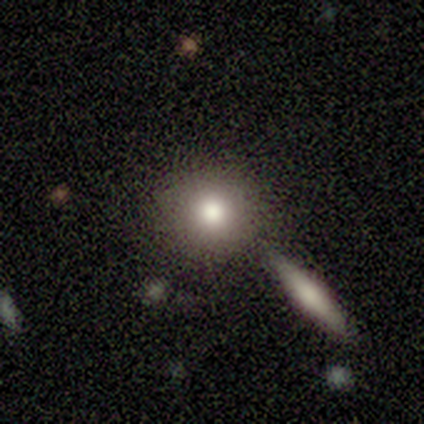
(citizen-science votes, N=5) A smooth galaxy with no disk features (80%) that is round (100%).

Vote fractions:
- Smooth or featured? smooth: 80% / star or artifact: 20% / featured or disk: 0%
- How rounded? round: 100% / in between: 0% / cigar-shaped: 0%
- Merging? none: 100% / minor disturbance: 0% / major disturbance: 0% / merger: 0%